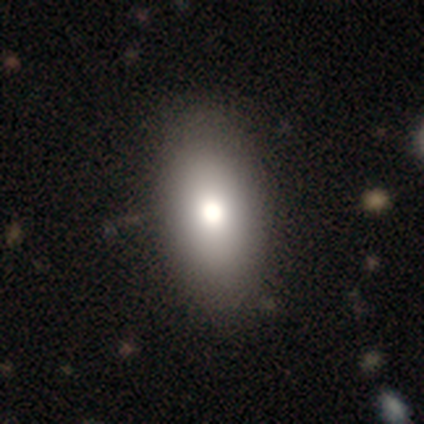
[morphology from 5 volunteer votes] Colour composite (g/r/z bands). It shows a smooth galaxy with no disk features (40%, tied with featured or disk) that is in between round and cigar-shaped (100%). Merging: minor disturbance (75%).